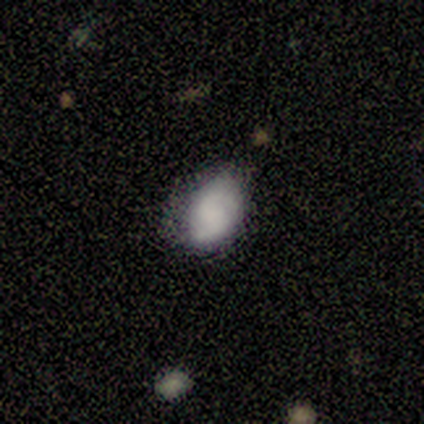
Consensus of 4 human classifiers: featured or disk 75%, smooth 25%, star or artifact 0%. Down the decision tree: edge-on disk — no (100%); bar — no (100%); spiral arms — yes (100%); spiral arm count — 2 (100%); spiral winding — medium (67%); bulge size — none (100%); merging — none (50%, tied with minor disturbance).